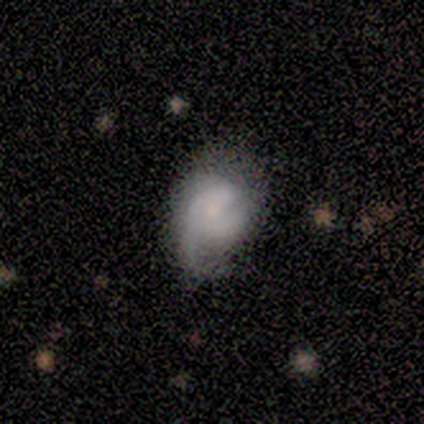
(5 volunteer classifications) This is likely a smooth galaxy (60%). How rounded: likely in between (67%). Merging: marginally minor disturbance (40%, tied with major disturbance).